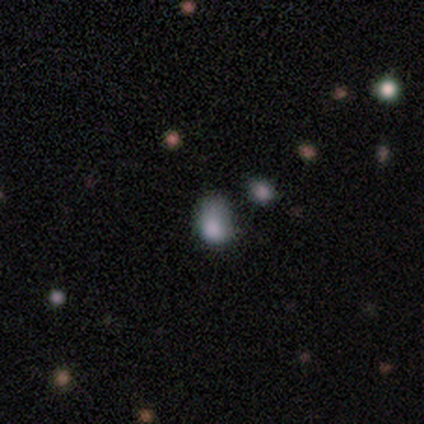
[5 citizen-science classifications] Q: Smooth or featured?
A: smooth (60%); runner-up: star or artifact (40%)
Q: How rounded?
A: in between (67%); runner-up: round (33%)
Q: Merging?
A: none (33%); tied with: minor disturbance (33%); major disturbance (33%)